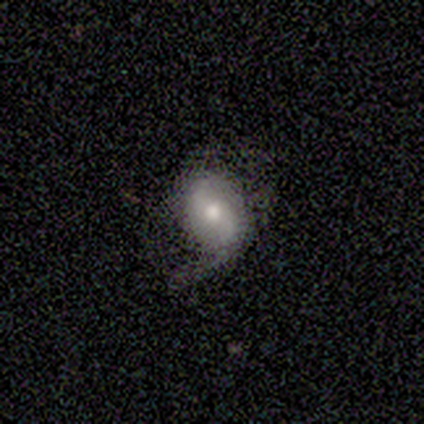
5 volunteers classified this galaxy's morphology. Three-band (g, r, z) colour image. It shows a featured or disk galaxy (40%, tied with star or artifact) with no bar (100%), 2 (100%) medium (50%, tied with loose) spiral arms (100%) and a large central bulge (50%, tied with small). Merging: none (67%).